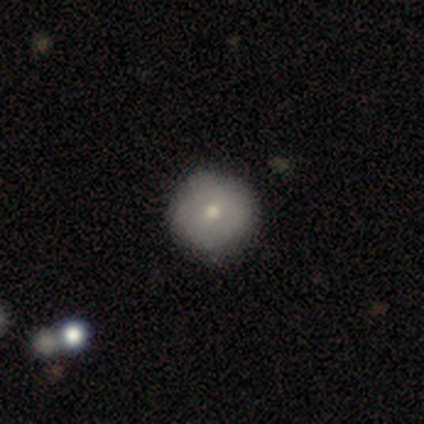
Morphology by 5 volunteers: Smooth or featured? 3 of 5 (60%) said featured or disk. Edge-on disk? 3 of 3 (100%) said no. Bar? 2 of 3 (67%) said weak. Spiral arms? 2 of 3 (67%) said yes. Spiral winding? 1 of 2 (50%, tied with medium) said tight. Spiral arm count? 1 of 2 (50%, tied with can't tell) said 2. Bulge size? 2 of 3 (67%) said small. Merging? 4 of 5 (80%) said none.